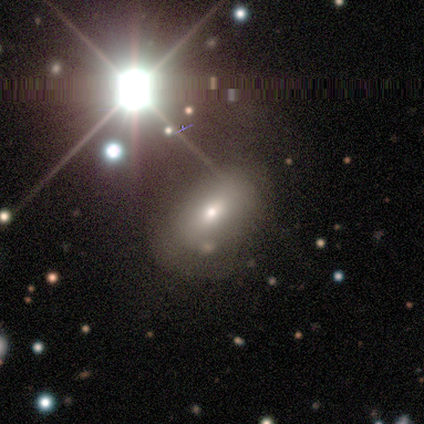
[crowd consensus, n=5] A featured or disk galaxy (40%, tied with star or artifact) with no bar (100%), no spiral arms (100%) and a moderate central bulge (50%, tied with small). Merging: none (67%).